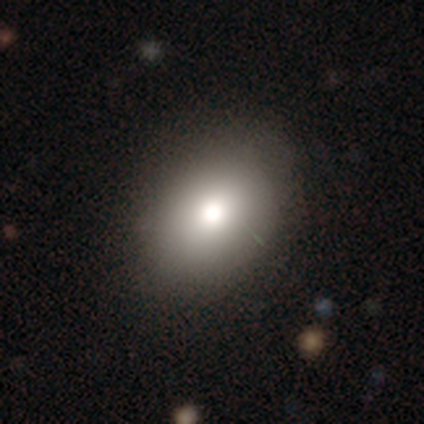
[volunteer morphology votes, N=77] smooth-or-featured: smooth: 84% | featured or disk: 9% | star or artifact: 6%
  how-rounded: in between: 72% | round: 28% | cigar-shaped: 0%
  merging: none: 39% | minor disturbance: 11% | merger: 3% | major disturbance: 0%